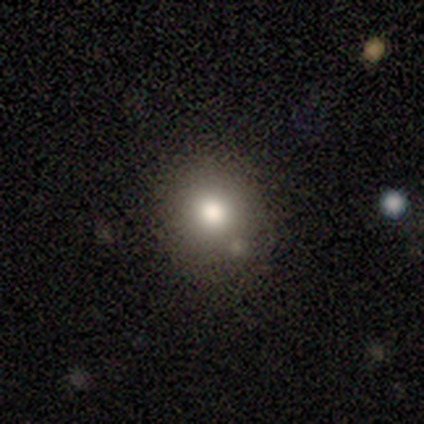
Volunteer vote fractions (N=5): Smooth or featured: smooth — 80% (star or artifact — 20%)
How rounded: round — 100%
Merging: none — 100%